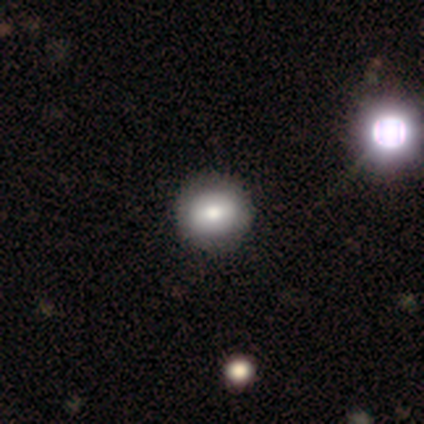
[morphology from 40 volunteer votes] smooth_or_featured: smooth (p=0.68) [alt: featured or disk p=0.28]
how_rounded: round (p=0.89) [alt: in between p=0.11]
merging: none (p=0.66) [alt: major disturbance p=0.05]